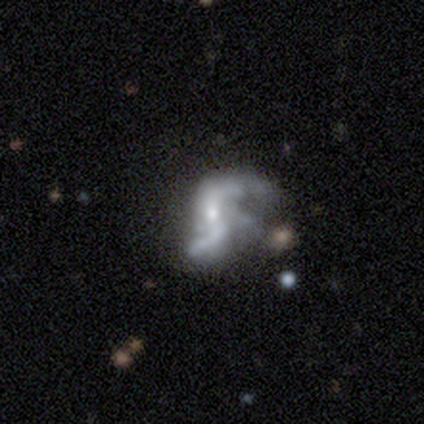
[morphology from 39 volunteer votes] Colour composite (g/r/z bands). It shows a featured or disk galaxy (82%) with a weak bar (44%), 2 (83%) loose (86%) spiral arms (91%) and a small central bulge (44%). Merging: major disturbance (47%).